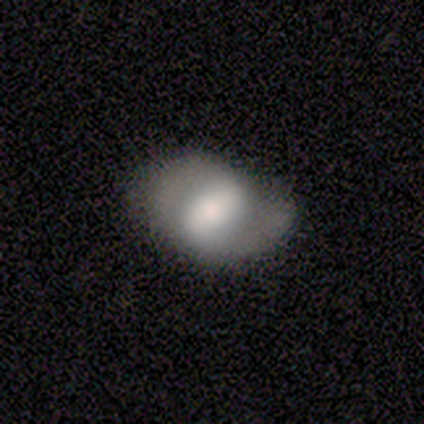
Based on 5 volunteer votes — This appears to be a smooth galaxy with no disk features (60%) that is in between round and cigar-shaped (100%). Merging: none (50%).